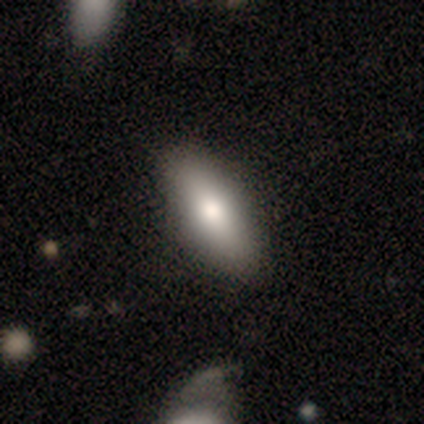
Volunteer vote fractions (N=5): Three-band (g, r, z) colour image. It shows a smooth galaxy with no disk features (80%) that is in between round and cigar-shaped (100%). Merging: none (100%).